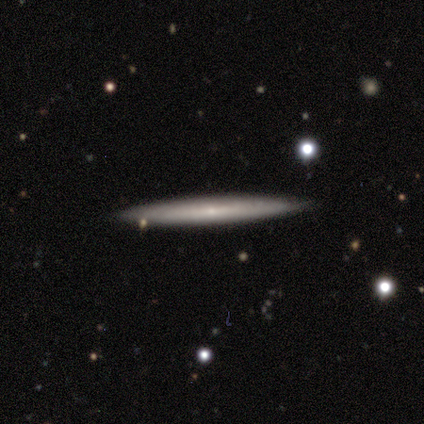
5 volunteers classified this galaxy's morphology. smooth-or-featured: smooth: 60% | featured or disk: 40% | star or artifact: 0%
  how-rounded: cigar-shaped: 100% | round: 0% | in between: 0%
  merging: none: 100% | minor disturbance: 0% | major disturbance: 0% | merger: 0%